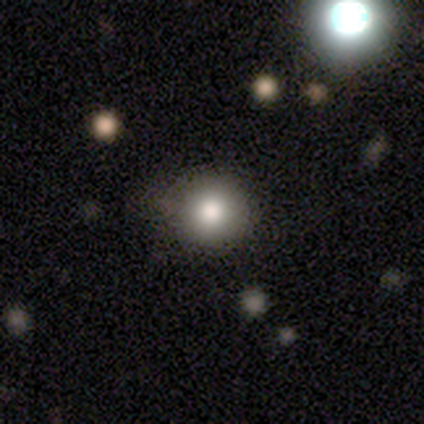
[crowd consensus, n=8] Morphology: type=smooth (75%); roundness=round (100%); merging=none (86%).